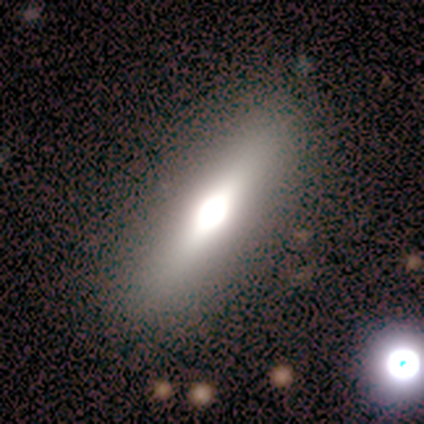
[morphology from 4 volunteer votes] A smooth galaxy with no disk features (75%) that is in between round and cigar-shaped (100%). Merging: none (75%).